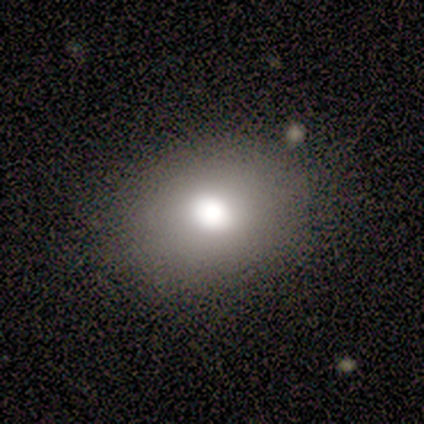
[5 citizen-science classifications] Smooth or featured: smooth — 60% (featured or disk — 20%)
How rounded: round — 67% (in between — 33%)
Merging: none — 75% (minor disturbance — 25%)